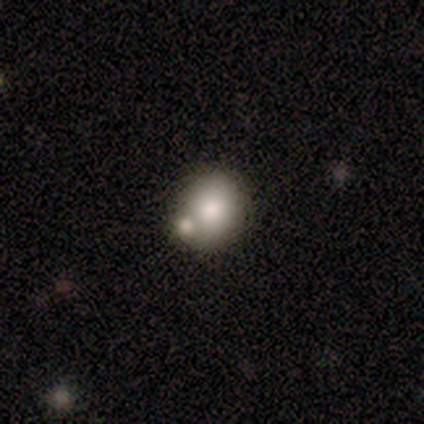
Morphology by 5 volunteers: type=smooth (80%); roundness=round (50%, tied with in between); merging=none (100%).